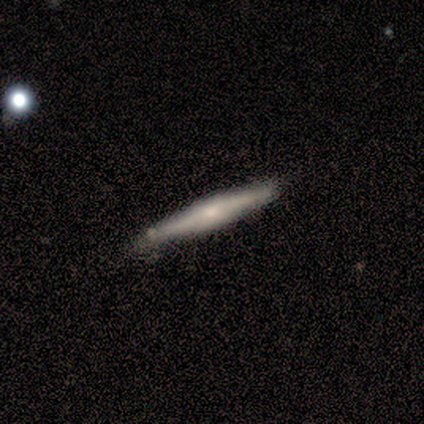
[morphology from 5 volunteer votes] A smooth galaxy with no disk features (60%) that is cigar-shaped (100%).

Vote fractions:
- Smooth or featured? smooth: 60% / featured or disk: 40% / star or artifact: 0%
- How rounded? cigar-shaped: 100% / round: 0% / in between: 0%
- Merging? none: 100% / minor disturbance: 0% / major disturbance: 0% / merger: 0%